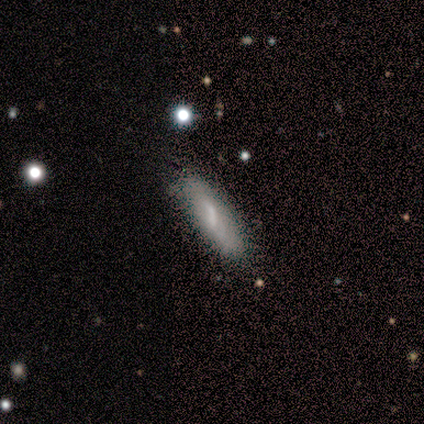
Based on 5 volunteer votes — Volunteers were most divided on "how rounded": cigar-shaped: 75%, in between: 25%, round: 0%. More confident: smooth or featured — smooth (80%); merging — none (80%).